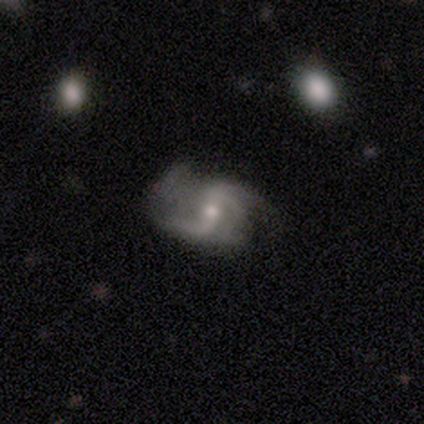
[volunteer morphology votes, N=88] This appears to be a featured or disk galaxy (86%) with a weak bar (37%), 2 (75%) loose (62%) spiral arms (95%) and a small central bulge (47%). Merging: none (51%).